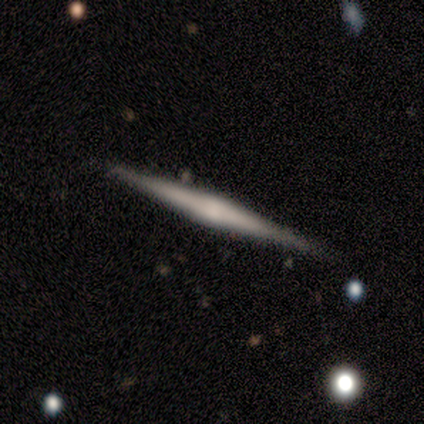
This appears to be a featured or disk galaxy (60%) viewed edge-on (100%) with a rounded central bulge (100%). Merging: none (100%).